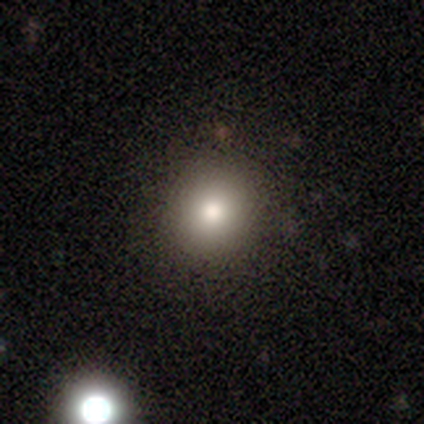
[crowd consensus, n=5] Smooth or featured?
  - smooth: 80% *
  - star or artifact: 20%
  - featured or disk: 0%
How rounded?
  - round: 50% * (tied)
  - in between: 50% * (tied)
  - cigar-shaped: 0%
Merging?
  - none: 100% *
  - minor disturbance: 0%
  - major disturbance: 0%
  - merger: 0%